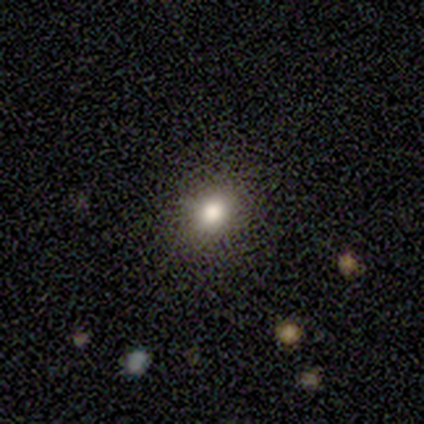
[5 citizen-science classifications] Smooth or featured? smooth (80%)
How rounded? round (50%, tied with in between)
Merging? none (100%)